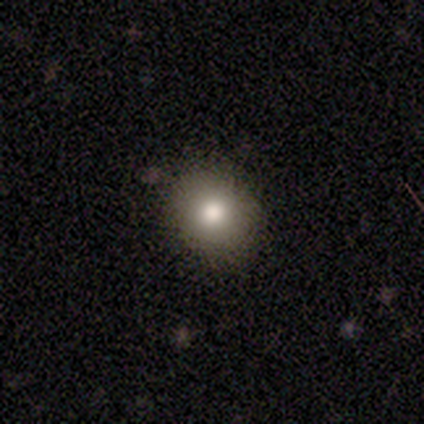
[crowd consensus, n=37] Smooth or featured: smooth — 73% (featured or disk — 14%)
How rounded: round — 81% (in between — 19%)
Merging: none — 88% (minor disturbance — 9%)